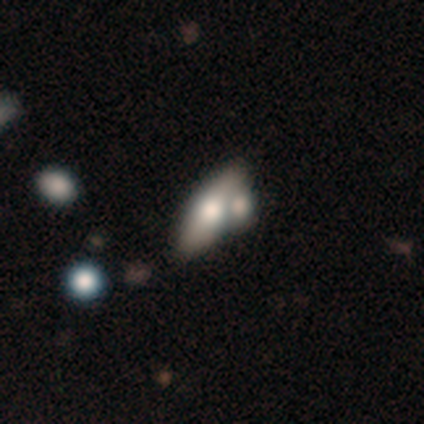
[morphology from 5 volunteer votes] type=smooth (60%); roundness=in between (67%); merging=merger (60%).